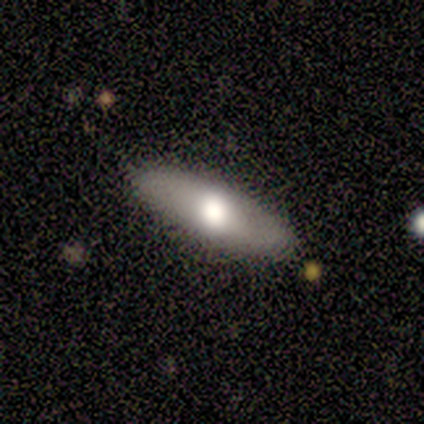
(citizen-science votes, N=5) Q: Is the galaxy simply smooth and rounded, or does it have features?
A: smooth — 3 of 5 (60%).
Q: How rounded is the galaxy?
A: in between — 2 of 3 (67%).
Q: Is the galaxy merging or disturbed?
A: none — 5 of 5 (100%).